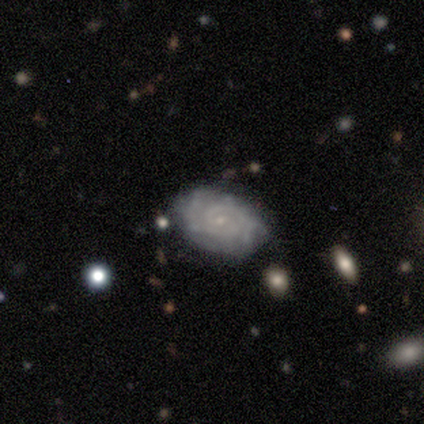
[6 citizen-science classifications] smooth_or_featured: featured or disk (p=0.67) [alt: smooth p=0.17]
disk_edge_on: no (p=1.00)
bar: weak (p=0.50) [tied with: no p=0.50]
has_spiral_arms: yes (p=1.00)
spiral_winding: tight (p=1.00)
spiral_arm_count: can't tell (p=0.75) [alt: 2 p=0.25]
bulge_size: small (p=1.00)
merging: none (p=0.80) [alt: minor disturbance p=0.20]